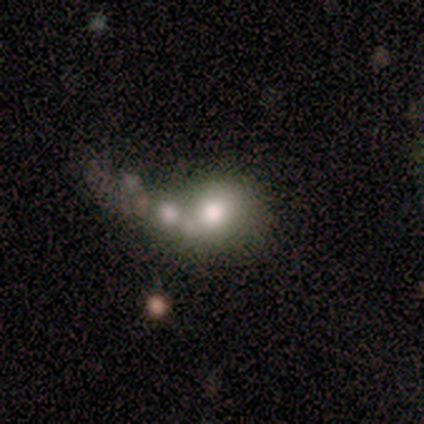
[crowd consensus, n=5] Smooth or featured? smooth (60%)
How rounded? round (100%)
Merging? none (50%)